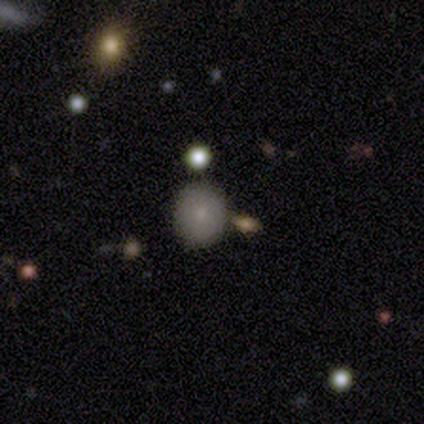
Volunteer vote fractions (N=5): This is clearly a smooth galaxy (80%). How rounded: likely round (75%). Merging: clearly none (100%).